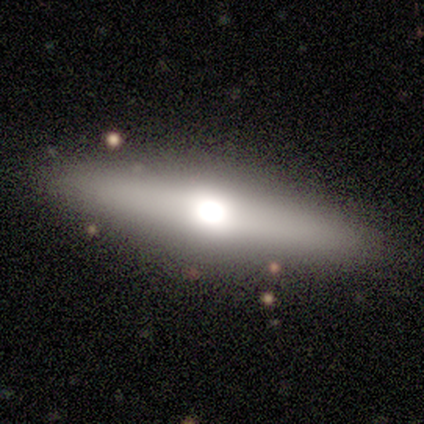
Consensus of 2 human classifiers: Smooth or featured? featured or disk (100%)
Edge-on disk? yes (100%)
Edge-on bulge? rounded (100%)
Merging? none (100%)